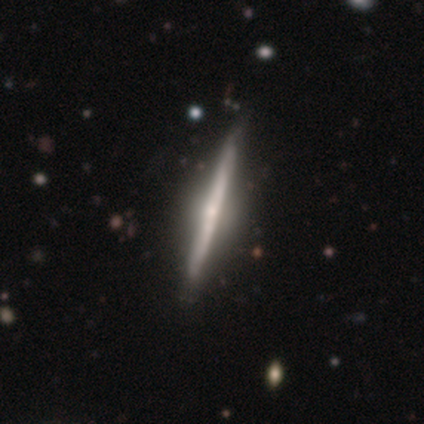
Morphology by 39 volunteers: This appears to be a featured or disk galaxy (79%) viewed edge-on (100%) with a rounded central bulge (77%). Merging: none (58%).